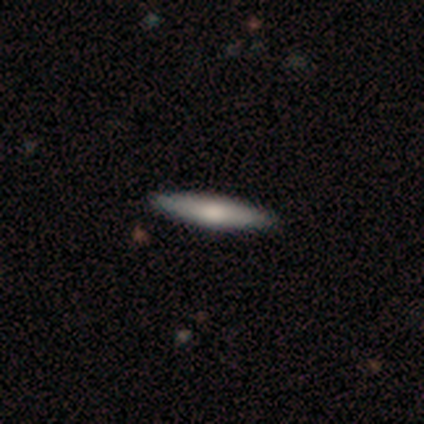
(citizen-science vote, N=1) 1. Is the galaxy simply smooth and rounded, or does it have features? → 100% smooth, 0% featured or disk, 0% star or artifact.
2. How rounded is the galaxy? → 100% cigar-shaped, 0% round, 0% in between.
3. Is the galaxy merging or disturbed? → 100% none, 0% minor disturbance, 0% major disturbance, 0% merger.